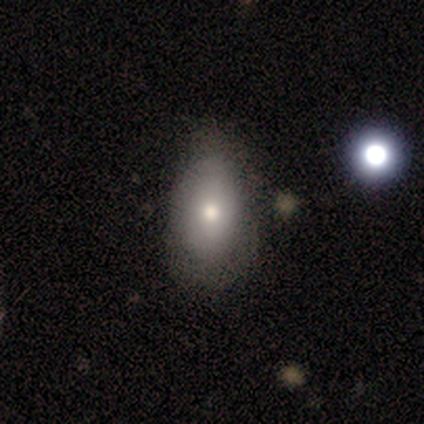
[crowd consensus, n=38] Morphology: type=smooth (74%); roundness=in between (93%); merging=none (58%).